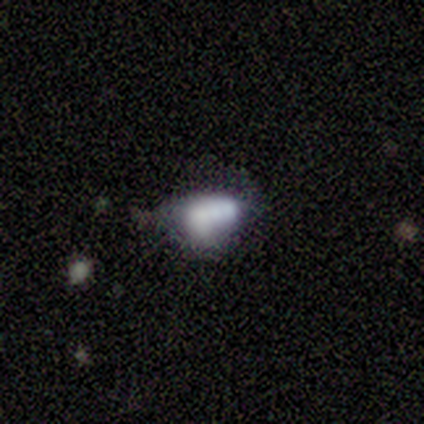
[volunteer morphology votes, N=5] Smooth or featured?
  - smooth: 40% * (tied)
  - star or artifact: 40% * (tied)
  - featured or disk: 20%
How rounded?
  - in between: 100% *
  - round: 0%
  - cigar-shaped: 0%
Merging?
  - minor disturbance: 67% *
  - none: 33%
  - major disturbance: 0%
  - merger: 0%